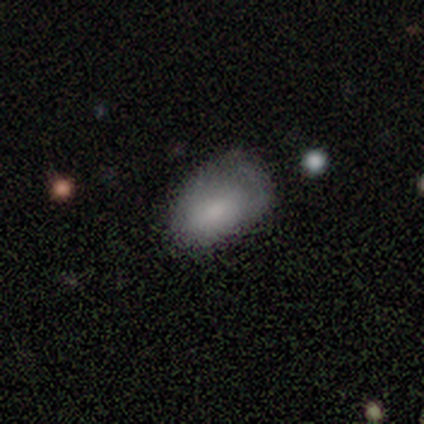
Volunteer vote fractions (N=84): This is clearly a smooth galaxy (87%). How rounded: clearly in between (92%). Merging: possibly minor disturbance (46%).